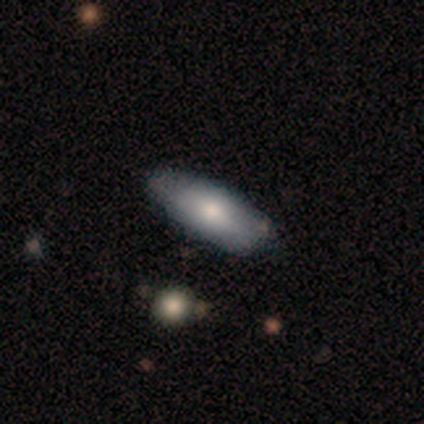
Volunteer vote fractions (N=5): Smooth or featured? 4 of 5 (80%) said smooth. How rounded? 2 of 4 (50%, tied with cigar-shaped) said in between. Merging? 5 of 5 (100%) said none.